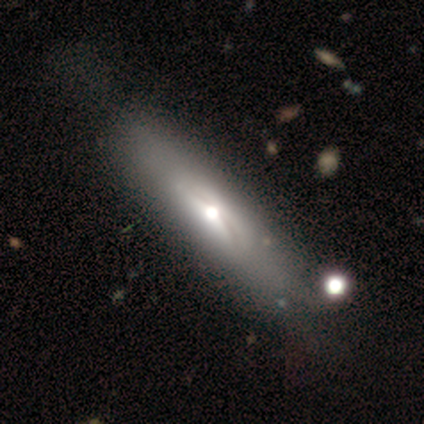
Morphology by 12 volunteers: Smooth or featured? featured or disk (50%)
Edge-on disk? yes (67%)
Edge-on bulge? rounded (100%)
Merging? none (64%)